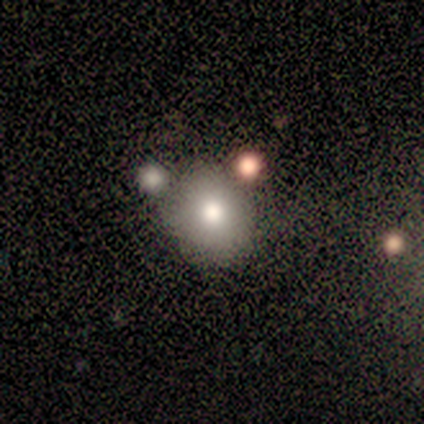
Smooth or featured?
  - smooth: 60% *
  - featured or disk: 20%
  - star or artifact: 20%
How rounded?
  - round: 100% *
  - in between: 0%
  - cigar-shaped: 0%
Merging?
  - none: 100% *
  - minor disturbance: 0%
  - major disturbance: 0%
  - merger: 0%